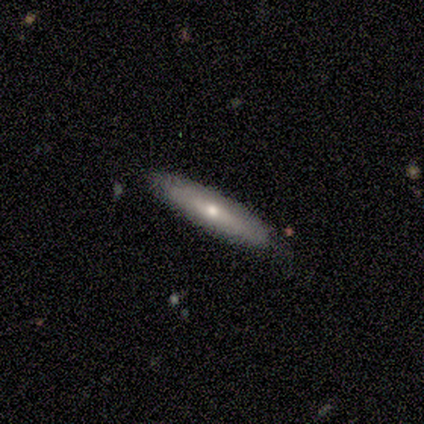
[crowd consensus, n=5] smooth_or_featured: smooth (p=0.80) [alt: featured or disk p=0.20]
how_rounded: cigar-shaped (p=1.00)
merging: none (p=0.60) [alt: minor disturbance p=0.20]